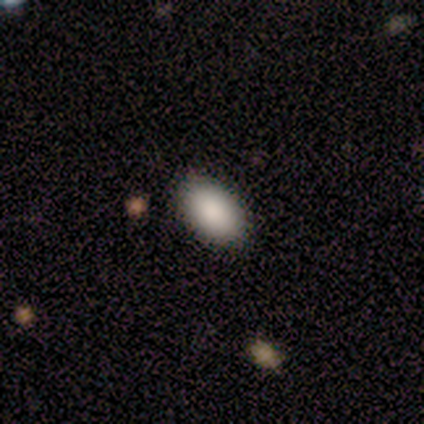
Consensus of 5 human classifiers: This is clearly a smooth galaxy (100%). How rounded: clearly in between (100%). Merging: clearly none (80%).